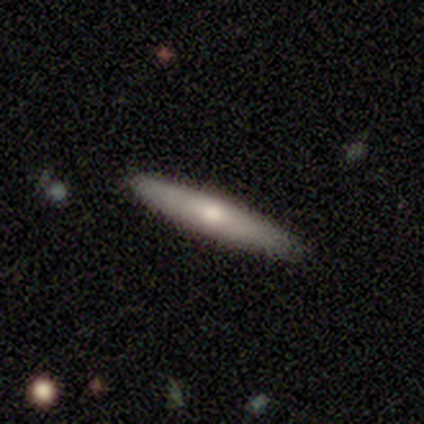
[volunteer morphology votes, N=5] smooth_or_featured: smooth (p=0.40) [tied with: featured or disk p=0.40]
how_rounded: cigar-shaped (p=1.00)
merging: none (p=1.00)